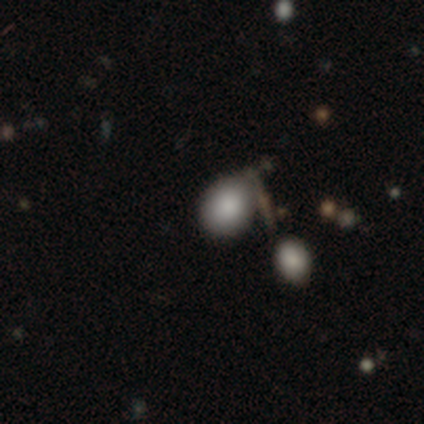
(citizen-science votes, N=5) A smooth galaxy with no disk features (100%) that is round (60%). Merging: none (60%).